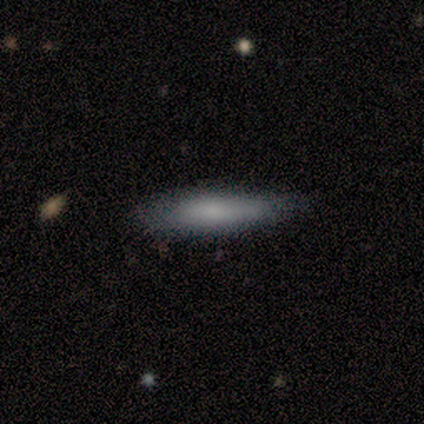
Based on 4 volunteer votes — A smooth galaxy with no disk features (75%) that is cigar-shaped (67%). Merging: none (50%, tied with minor disturbance).